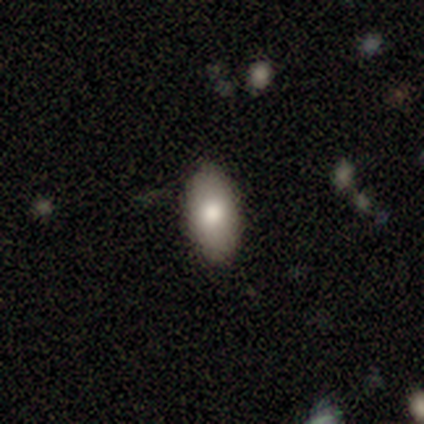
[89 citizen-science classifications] Smooth or featured: smooth — 78% (featured or disk — 18%)
How rounded: in between — 93% (round — 4%)
Merging: none — 86% (minor disturbance — 9%)